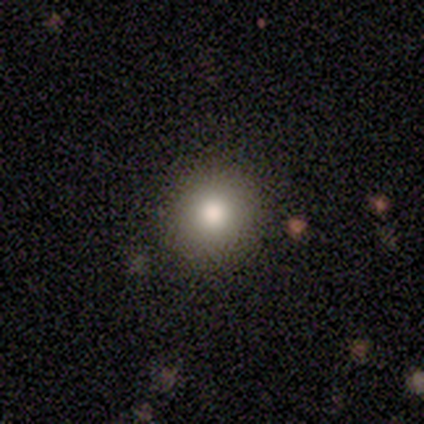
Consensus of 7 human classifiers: Smooth or featured? 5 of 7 (71%) said smooth. How rounded? 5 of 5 (100%) said round. Merging? 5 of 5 (100%) said none.